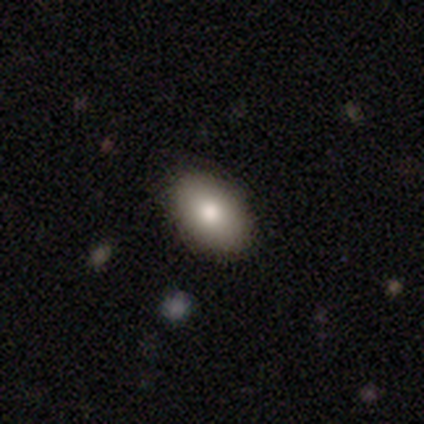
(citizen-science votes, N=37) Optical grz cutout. It shows a smooth galaxy with no disk features (81%) that is in between round and cigar-shaped (97%). Merging: none (86%).